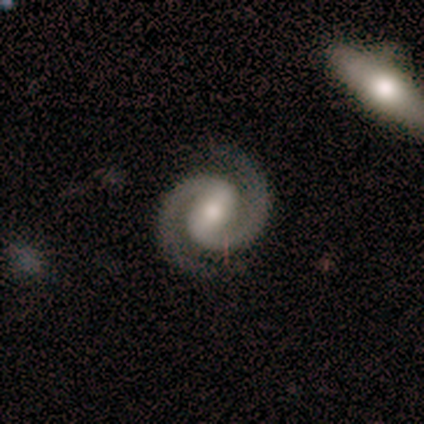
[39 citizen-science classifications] Overall: featured or disk (90%). Edge-on disk: no (97%). Bar: weak (59%; strong 32%). Spiral arms: yes (100%). Spiral arm count: 2 (100%). Spiral winding: tight (50%, tied with medium). Bulge size: moderate (38%, tied with small). Merging: none (95%).